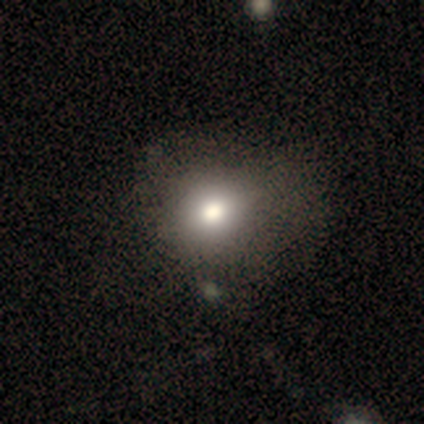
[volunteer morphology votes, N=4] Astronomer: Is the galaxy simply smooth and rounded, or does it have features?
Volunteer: smooth — 100%.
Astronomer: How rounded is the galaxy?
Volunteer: round — 75%.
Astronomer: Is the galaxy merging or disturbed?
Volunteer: none — 50%, tied with major disturbance at 50%.